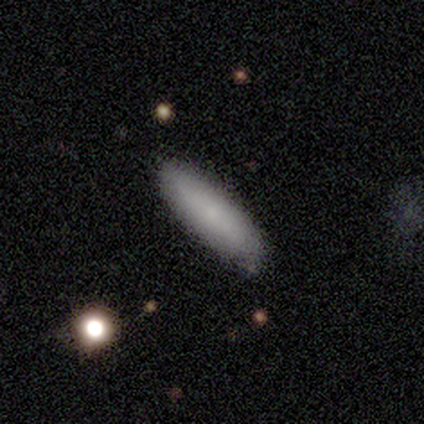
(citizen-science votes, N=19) This appears to be a smooth galaxy with no disk features (89%) that is cigar-shaped (59%). Merging: none (84%).